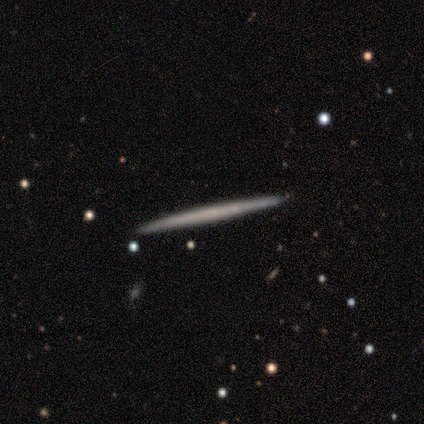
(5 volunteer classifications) This appears to be a featured or disk galaxy (80%) viewed edge-on (75%) with no central bulge (100%). Merging: none (80%).